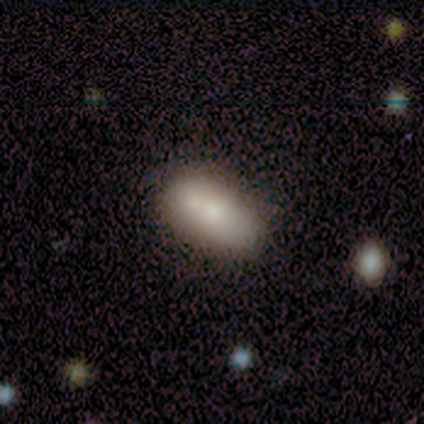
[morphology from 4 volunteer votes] type=smooth (75%); roundness=in between (100%); merging=minor disturbance (50%).